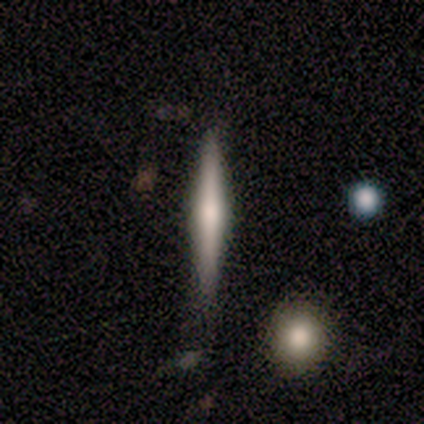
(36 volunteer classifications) Smooth or featured? featured or disk (56%)
Edge-on disk? yes (100%)
Edge-on bulge? rounded (65%)
Merging? none (79%)